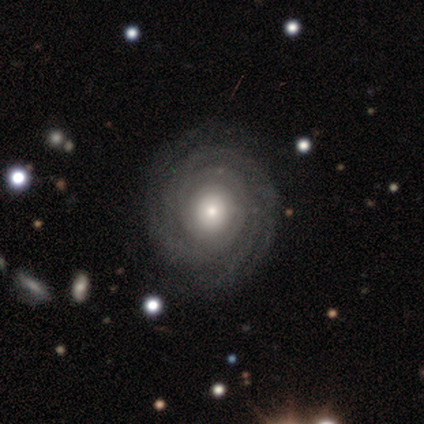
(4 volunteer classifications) Smooth or featured: featured or disk — 100%
Edge-on disk: no — 100%
Bar: no — 75% (weak — 25%)
Spiral arms: yes — 100%
Spiral winding: tight — 100%
Spiral arm count: can't tell — 50% (4 — 25%)
Bulge size: moderate — 100%
Merging: none — 75% (minor disturbance — 25%)